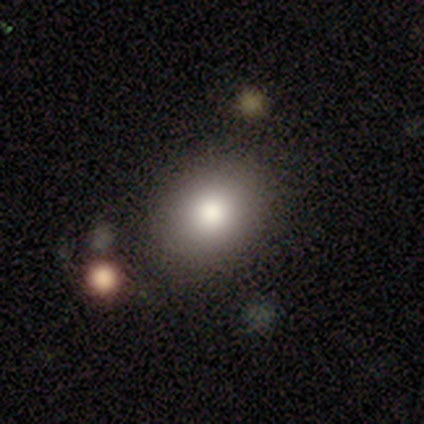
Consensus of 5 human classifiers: Smooth or featured: smooth — 100%
How rounded: in between — 60% (round — 40%)
Merging: none — 100%